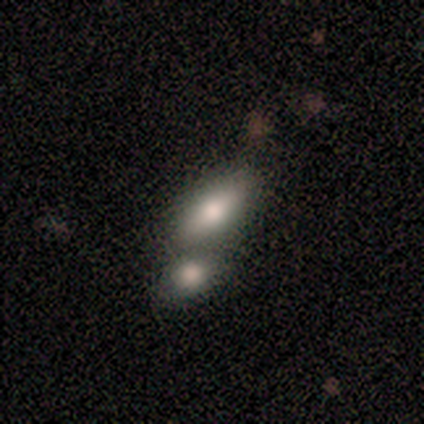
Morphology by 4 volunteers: type=smooth (50%, tied with featured or disk); roundness=in between (100%); merging=none (50%, tied with merger).